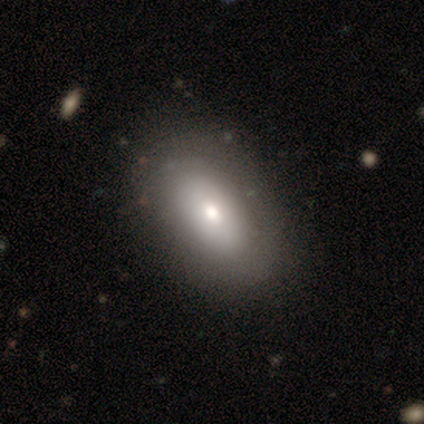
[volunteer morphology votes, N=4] Smooth or featured? smooth (50%, tied with featured or disk)
How rounded? in between (50%, tied with cigar-shaped)
Merging? none (75%)